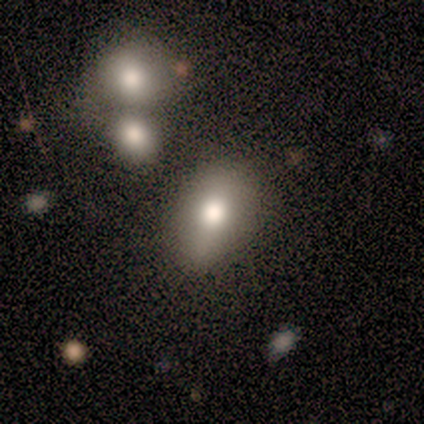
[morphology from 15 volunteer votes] Smooth or featured: smooth — 60% (featured or disk — 27%)
How rounded: in between — 78% (round — 22%)
Merging: none — 92% (minor disturbance — 8%)